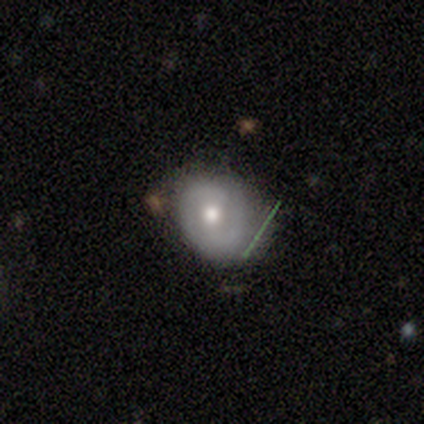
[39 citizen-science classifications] Smooth or featured: smooth — 51% (featured or disk — 41%)
How rounded: round — 70% (in between — 30%)
Merging: none — 50% (minor disturbance — 39%)